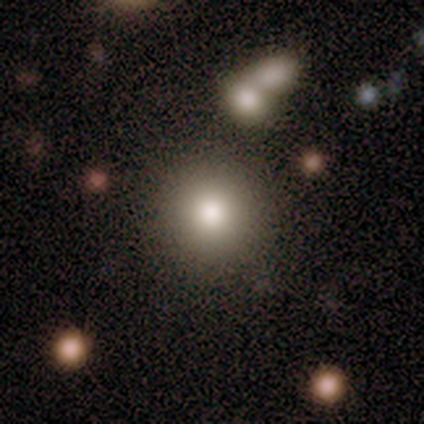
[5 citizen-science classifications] Overall: smooth (100%). How rounded: round (100%). Merging: none (80%).